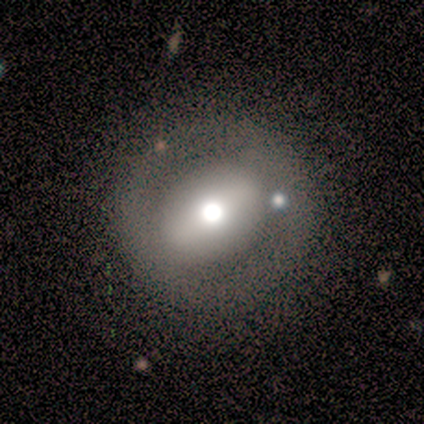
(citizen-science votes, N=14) Smooth or featured? smooth (43%, tied with featured or disk)
How rounded? round (83%)
Merging? none (92%)